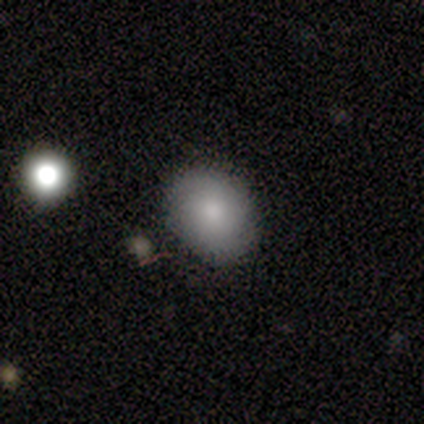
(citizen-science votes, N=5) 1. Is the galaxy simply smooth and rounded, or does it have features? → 40% smooth (tied), 40% star or artifact (tied), 20% featured or disk.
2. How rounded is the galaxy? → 100% in between, 0% round, 0% cigar-shaped.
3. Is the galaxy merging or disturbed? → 100% none, 0% minor disturbance, 0% major disturbance, 0% merger.